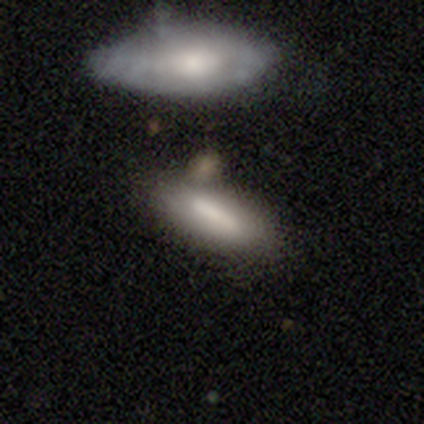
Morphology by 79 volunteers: Smooth or featured?
  - smooth: 68% *
  - featured or disk: 29%
  - star or artifact: 3%
How rounded?
  - in between: 54% *
  - cigar-shaped: 46%
  - round: 0%
Merging?
  - none: 31% *
  - merger: 25%
  - minor disturbance: 14%
  - major disturbance: 3%